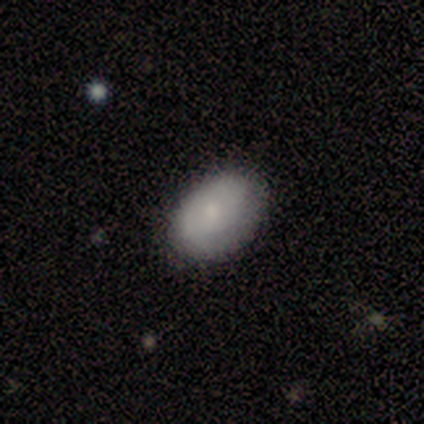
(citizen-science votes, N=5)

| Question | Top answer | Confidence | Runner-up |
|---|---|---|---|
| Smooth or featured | smooth | 80% | star or artifact (20%) |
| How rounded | in between | 100% | — |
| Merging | none | 50% | minor disturbance (25%) |